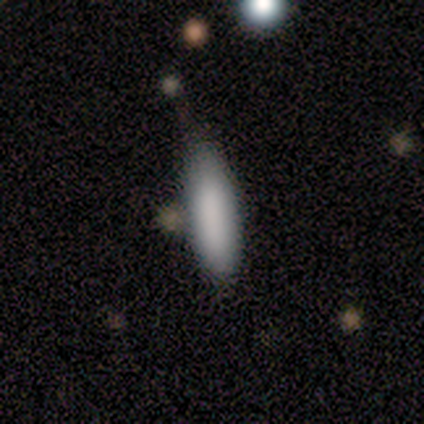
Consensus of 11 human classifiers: Smooth or featured? 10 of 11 (91%) said smooth. How rounded? 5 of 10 (50%, tied with cigar-shaped) said in between. Merging? 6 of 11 (55%) said none.